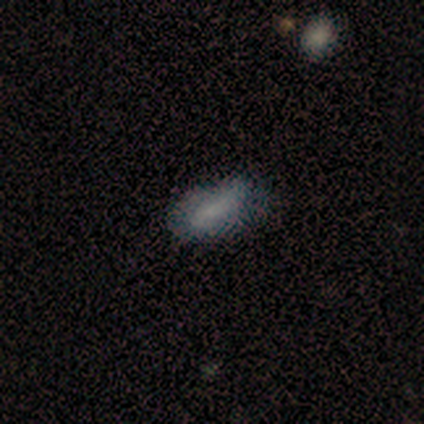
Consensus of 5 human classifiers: Volunteers were most divided on "spiral winding" (2-way tie): tight: 50%, medium: 50%, loose: 0%; "spiral arm count" (2-way tie): 2: 50%, can't tell: 50%, 1: 0%, 3: 0%, 4: 0%, more than 4: 0%. More confident: edge-on disk — no (100%); merging — minor disturbance (80%); bar — weak (67%); spiral arms — yes (67%); bulge size — none (67%); smooth or featured — featured or disk (60%).